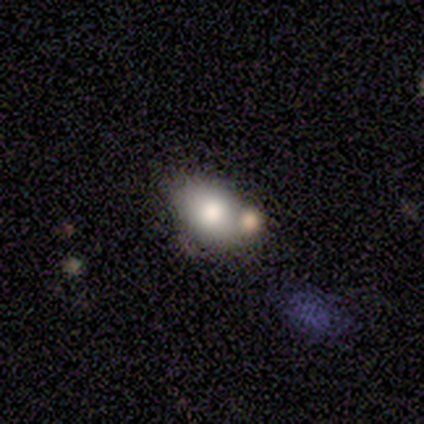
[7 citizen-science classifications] A smooth galaxy with no disk features (57%) that is in between round and cigar-shaped (75%). Merging: none (57%).